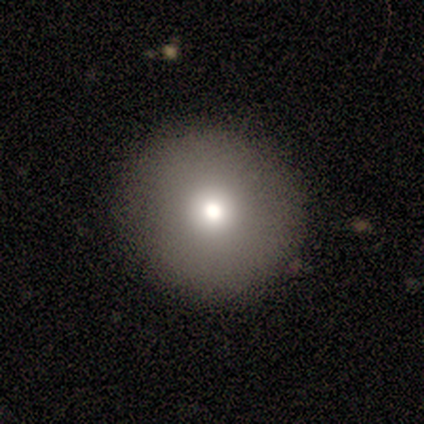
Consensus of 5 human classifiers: This appears to be a smooth galaxy with no disk features (100%) that is round (100%). Merging: none (100%).